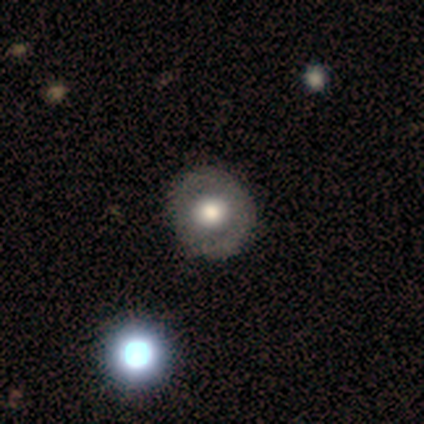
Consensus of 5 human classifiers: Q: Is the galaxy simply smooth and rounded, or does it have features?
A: star or artifact — 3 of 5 (60%).